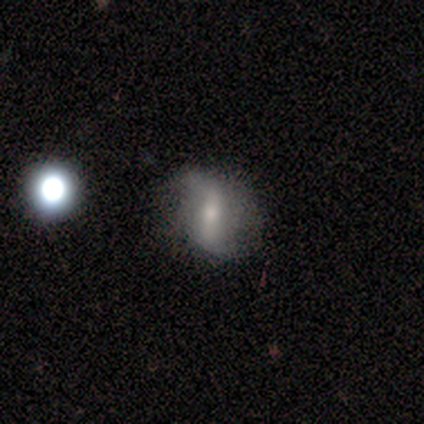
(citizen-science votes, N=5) smooth-or-featured: featured or disk: 60% | smooth: 20% | star or artifact: 20%
  disk-edge-on: yes: 67% | no: 33%
    edge-on-bulge: none: 50% (tied) | rounded: 50% (tied) | boxy: 0%
  merging: none: 75% | major disturbance: 25% | minor disturbance: 0% | merger: 0%